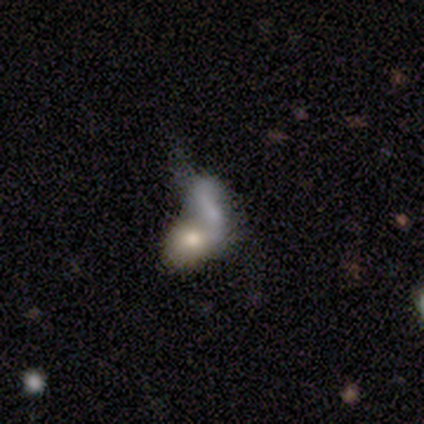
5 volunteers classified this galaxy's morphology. Q: Smooth or featured?
A: smooth (80%); runner-up: featured or disk (20%)
Q: How rounded?
A: round (75%); runner-up: cigar-shaped (25%)
Q: Merging?
A: merger (100%)